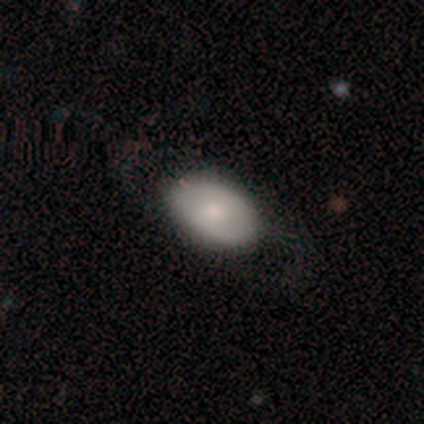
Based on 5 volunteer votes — A smooth galaxy with no disk features (100%) that is in between round and cigar-shaped (100%). Merging: none (60%).